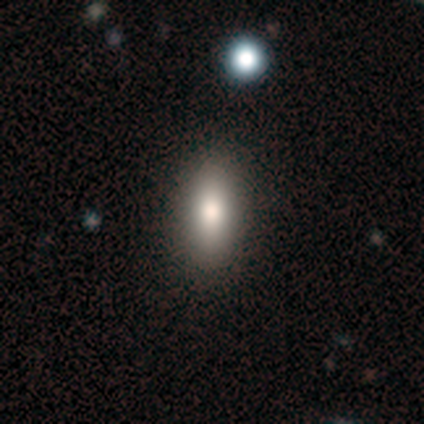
smooth_or_featured: smooth (p=0.85) [alt: featured or disk p=0.10]
how_rounded: in between (p=0.85) [alt: cigar-shaped p=0.15]
merging: none (p=0.73) [alt: minor disturbance p=0.03]